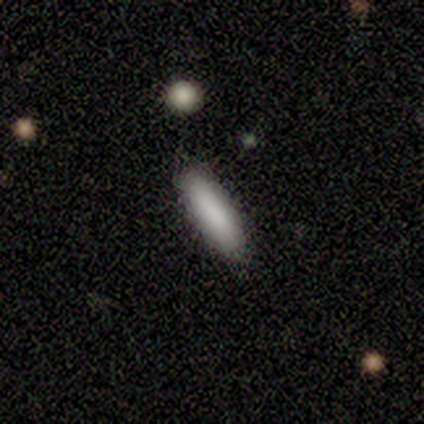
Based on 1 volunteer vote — A smooth galaxy with no disk features (100%) that is cigar-shaped (100%). Merging: none (100%).